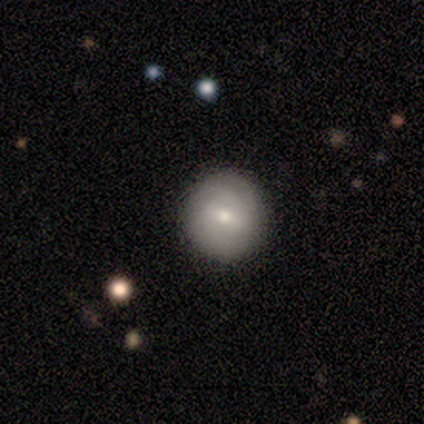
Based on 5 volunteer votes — A featured or disk galaxy (80%) with a weak bar (75%), 3 (50%, tied with can't tell) tight (100%) spiral arms (50%, tied with no) and a small central bulge (100%).

Vote fractions:
- Smooth or featured? featured or disk: 80% / star or artifact: 20% / smooth: 0%
- Edge-on disk? no: 100% / yes: 0%
- Bar? weak: 75% / no: 25% / strong: 0%
- Spiral arms? yes: 50% (tied) / no: 50% (tied)
- Spiral winding? tight: 100% / medium: 0% / loose: 0%
- Spiral arm count? 3: 50% (tied) / can't tell: 50% (tied) / 1: 0% / 2: 0% / 4: 0% / more than 4: 0%
- Bulge size? small: 100% / dominant: 0% / large: 0% / moderate: 0% / none: 0%
- Merging? none: 100% / minor disturbance: 0% / major disturbance: 0% / merger: 0%